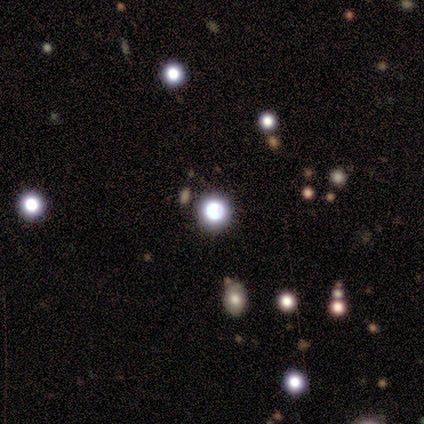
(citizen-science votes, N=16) Q: Smooth or featured?
A: smooth (50%); tied with: star or artifact (50%)
Q: How rounded?
A: round (100%)
Q: Merging?
A: none (75%); runner-up: minor disturbance (25%)